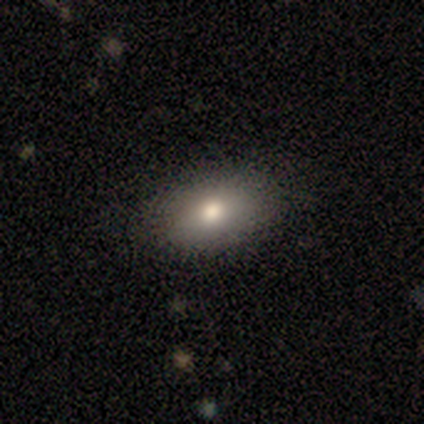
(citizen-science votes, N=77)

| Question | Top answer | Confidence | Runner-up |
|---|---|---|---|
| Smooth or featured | smooth | 73% | star or artifact (14%) |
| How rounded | in between | 91% | round (7%) |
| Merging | none | 45% | minor disturbance (8%) |